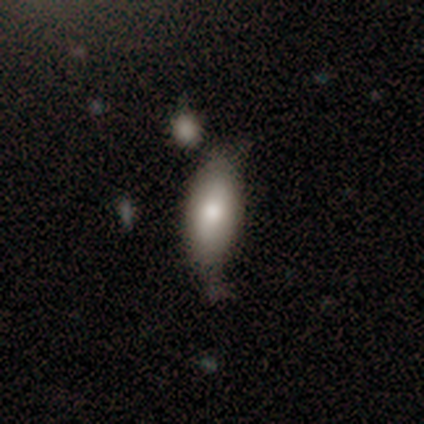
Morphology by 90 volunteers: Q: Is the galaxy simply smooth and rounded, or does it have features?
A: smooth — 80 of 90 (89%).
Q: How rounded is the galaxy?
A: in between — 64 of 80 (80%).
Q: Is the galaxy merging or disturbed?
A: none — 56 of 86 (65%).